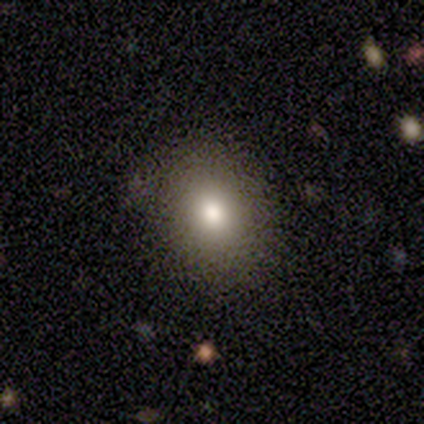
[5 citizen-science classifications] Morphology: type=smooth (100%); roundness=in between (60%); merging=none (60%).